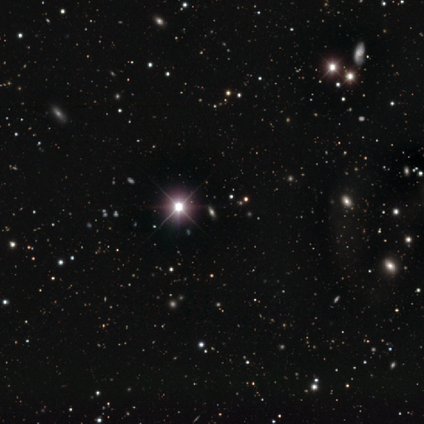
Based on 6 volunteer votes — A star or artifact, not a galaxy (100%).

Vote fractions:
- Smooth or featured? star or artifact: 100% / smooth: 0% / featured or disk: 0%